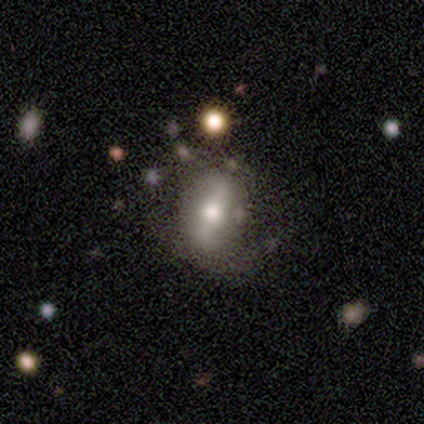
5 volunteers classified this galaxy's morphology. featured or disk 60%, smooth 20%, star or artifact 20%. Down the decision tree: edge-on disk — no (100%); bar — strong (67%); spiral arms — yes (67%); spiral arm count — 1 (50%, tied with can't tell); spiral winding — medium (100%); bulge size — moderate (100%); merging — none (50%, tied with major disturbance).